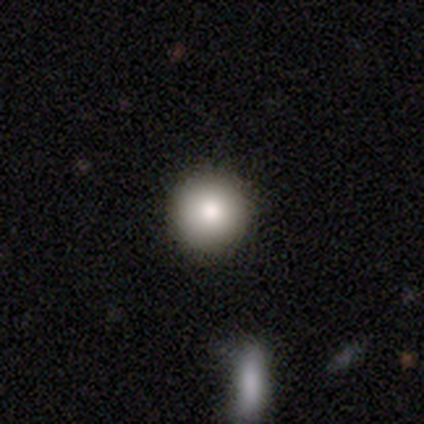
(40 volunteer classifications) Morphology: type=smooth (85%); roundness=round (100%); merging=none (89%).